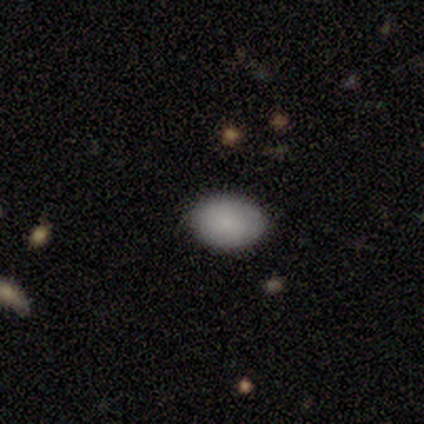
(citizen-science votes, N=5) smooth_or_featured: smooth (p=1.00)
how_rounded: in between (p=1.00)
merging: none (p=1.00)